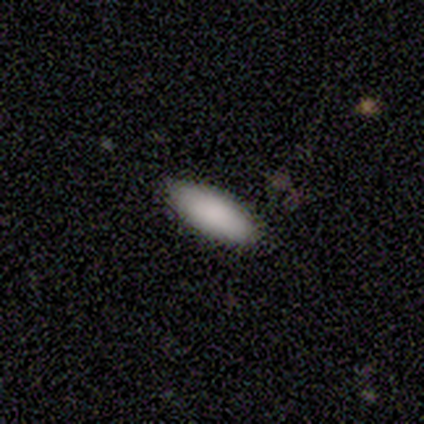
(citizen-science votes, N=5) smooth-or-featured: smooth: 80% | featured or disk: 20% | star or artifact: 0%
  how-rounded: in between: 75% | cigar-shaped: 25% | round: 0%
  merging: none: 80% | minor disturbance: 20% | major disturbance: 0% | merger: 0%